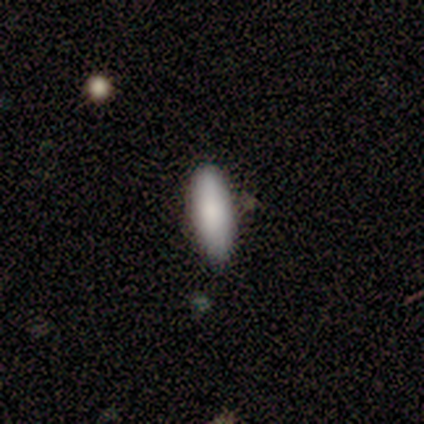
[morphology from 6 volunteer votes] Smooth or featured: smooth — 83% (featured or disk — 17%)
How rounded: in between — 100%
Merging: none — 100%